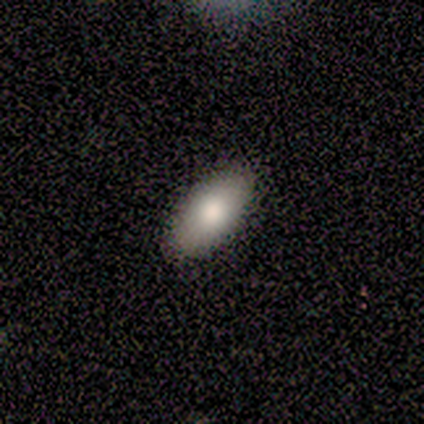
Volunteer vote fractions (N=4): smooth_or_featured: featured or disk (p=0.50) [alt: smooth p=0.25]
disk_edge_on: no (p=1.00)
bar: no (p=1.00)
has_spiral_arms: no (p=1.00)
bulge_size: large (p=0.50) [tied with: moderate p=0.50]
merging: none (p=1.00)